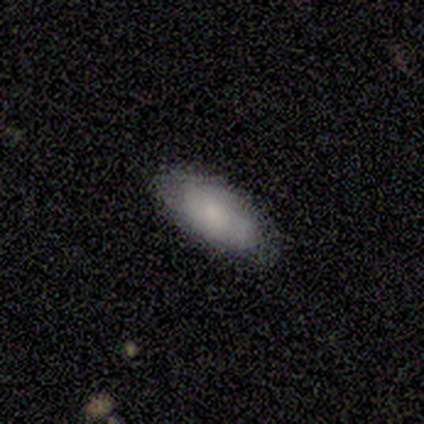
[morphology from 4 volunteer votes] Overall: featured or disk (75%). Edge-on disk: no (100%). Bar: no (67%; weak 33%). Spiral arms: yes (100%). Spiral arm count: can't tell (100%). Spiral winding: tight (67%; medium 33%). Bulge size: small (67%; moderate 33%). Merging: none (100%).